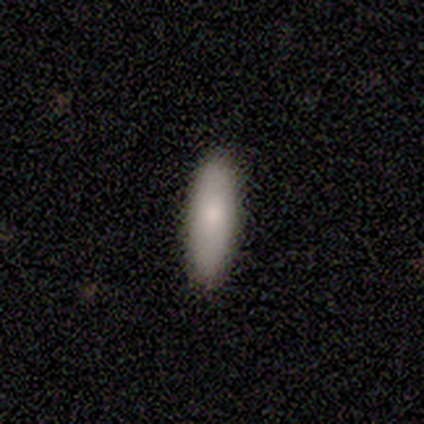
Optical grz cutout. It shows a smooth galaxy with no disk features (100%) that is cigar-shaped (75%). Merging: none (100%).